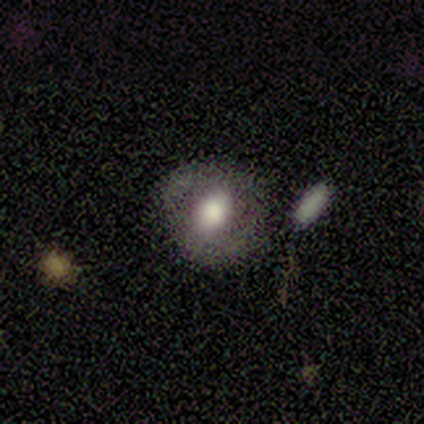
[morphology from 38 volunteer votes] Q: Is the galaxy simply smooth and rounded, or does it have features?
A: smooth — 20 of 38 (53%).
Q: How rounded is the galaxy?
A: round — 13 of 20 (65%).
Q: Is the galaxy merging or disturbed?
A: none — 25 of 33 (76%).